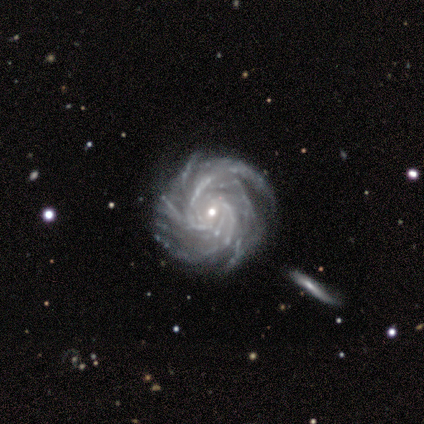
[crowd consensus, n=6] Smooth or featured? 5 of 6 (83%) said featured or disk. Edge-on disk? 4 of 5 (80%) said no. Bar? 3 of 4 (75%) said no. Spiral arms? 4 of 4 (100%) said yes. Spiral winding? 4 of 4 (100%) said tight. Spiral arm count? 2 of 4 (50%, tied with more than 4) said 4. Bulge size? 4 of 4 (100%) said small. Merging? 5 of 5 (100%) said none.